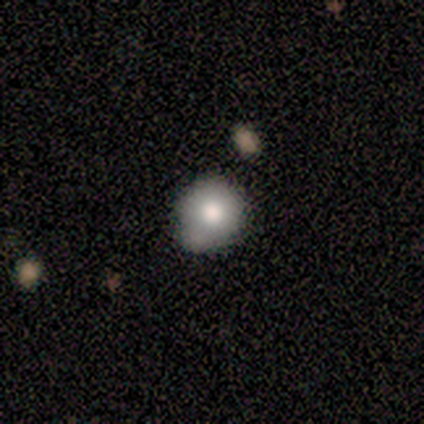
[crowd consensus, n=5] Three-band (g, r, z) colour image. It shows a smooth galaxy with no disk features (40%, tied with featured or disk) that is in between round and cigar-shaped (100%). Merging: none (50%, tied with minor disturbance).